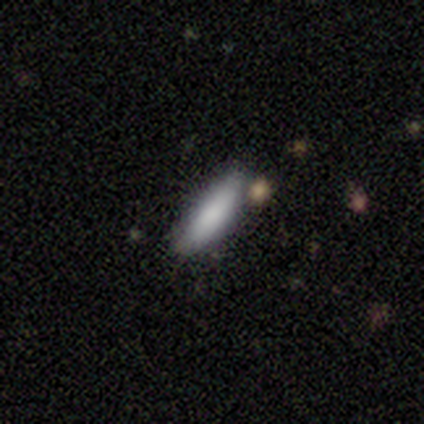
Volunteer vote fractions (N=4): Smooth or featured? 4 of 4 (100%) said smooth. How rounded? 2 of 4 (50%, tied with cigar-shaped) said in between. Merging? 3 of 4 (75%) said none.